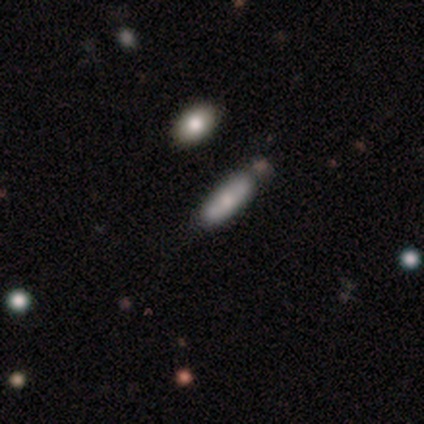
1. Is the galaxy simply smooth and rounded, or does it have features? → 80% smooth, 20% featured or disk, 0% star or artifact.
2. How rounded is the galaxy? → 75% in between, 25% cigar-shaped, 0% round.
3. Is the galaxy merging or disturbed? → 80% none, 20% minor disturbance, 0% major disturbance, 0% merger.